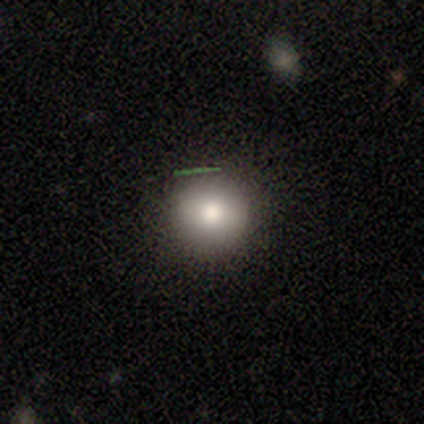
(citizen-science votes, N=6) A smooth galaxy with no disk features (67%) that is round (100%).

Vote fractions:
- Smooth or featured? smooth: 67% / featured or disk: 33% / star or artifact: 0%
- How rounded? round: 100% / in between: 0% / cigar-shaped: 0%
- Merging? none: 100% / minor disturbance: 0% / major disturbance: 0% / merger: 0%